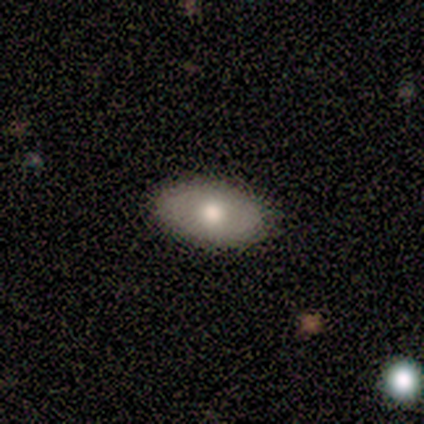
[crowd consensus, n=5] Q: Smooth or featured?
A: smooth (80%); runner-up: featured or disk (20%)
Q: How rounded?
A: in between (100%)
Q: Merging?
A: none (80%); runner-up: minor disturbance (20%)